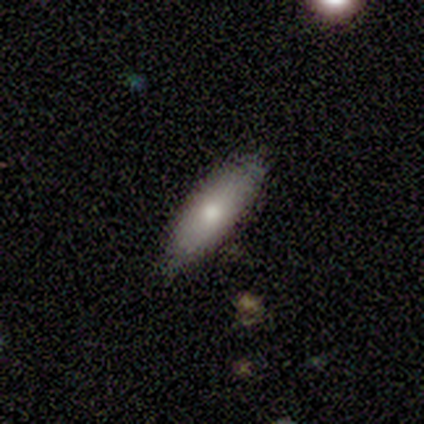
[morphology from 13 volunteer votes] Smooth or featured? smooth (69%)
How rounded? cigar-shaped (78%)
Merging? none (83%)